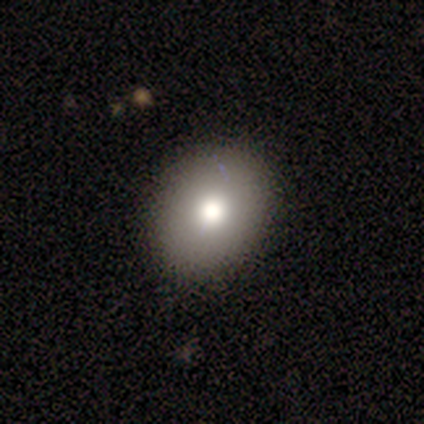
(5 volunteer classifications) Q: Smooth or featured?
A: smooth (60%); runner-up: featured or disk (20%)
Q: How rounded?
A: round (67%); runner-up: in between (33%)
Q: Merging?
A: none (100%)